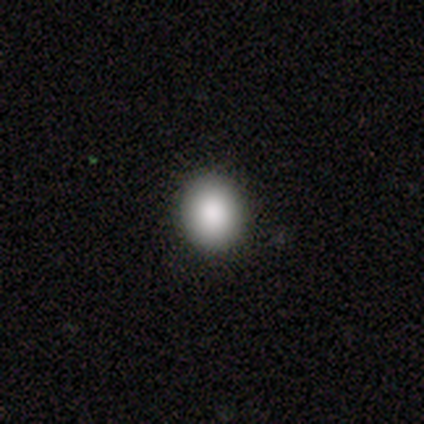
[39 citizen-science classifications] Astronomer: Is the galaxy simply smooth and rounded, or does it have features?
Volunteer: smooth — 85%.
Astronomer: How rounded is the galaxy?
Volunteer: round — 73%.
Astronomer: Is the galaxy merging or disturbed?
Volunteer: none — 53%.